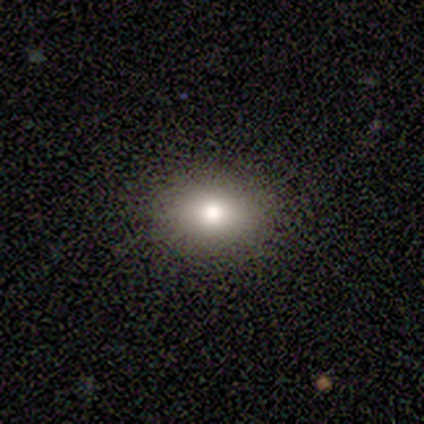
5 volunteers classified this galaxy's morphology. This is clearly a smooth galaxy (80%). How rounded: possibly round (50%, tied with in between). Merging: likely none (75%).